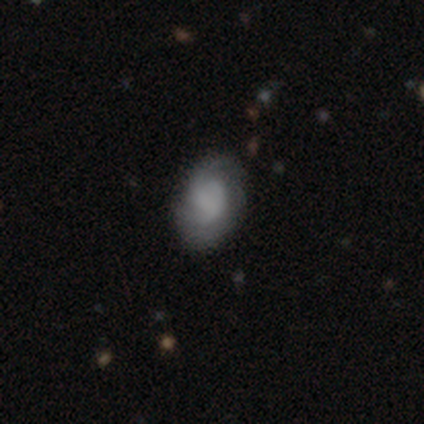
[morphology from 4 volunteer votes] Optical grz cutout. It shows a smooth galaxy with no disk features (50%, tied with featured or disk) that is in between round and cigar-shaped (100%). Merging: none (50%).